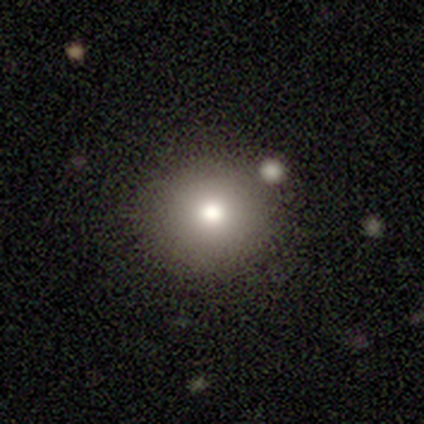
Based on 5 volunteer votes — Smooth or featured? smooth (100%)
How rounded? round (100%)
Merging? none (100%)